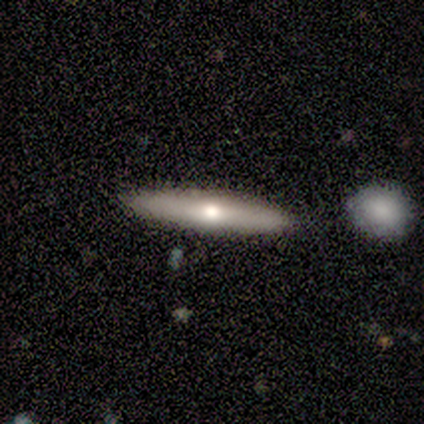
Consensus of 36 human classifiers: Morphology: type=featured or disk (64%); edge-on=yes (87%); edge-on bulge=rounded (75%); merging=none (91%).